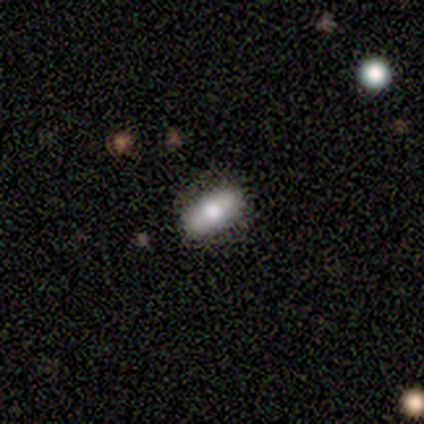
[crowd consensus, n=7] Q: Smooth or featured?
A: smooth (86%); runner-up: featured or disk (14%)
Q: How rounded?
A: in between (83%); runner-up: cigar-shaped (17%)
Q: Merging?
A: none (71%); runner-up: minor disturbance (29%)